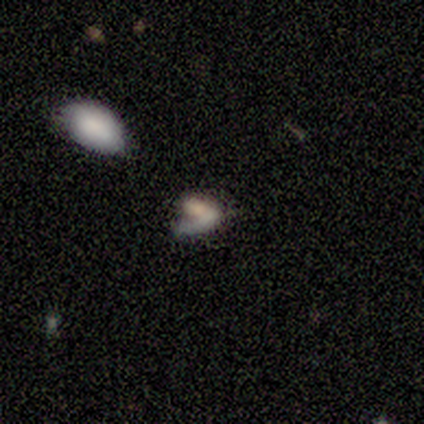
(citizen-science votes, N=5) Q: Smooth or featured?
A: smooth (60%); runner-up: star or artifact (40%)
Q: How rounded?
A: in between (100%)
Q: Merging?
A: none (33%); tied with: major disturbance (33%); merger (33%)